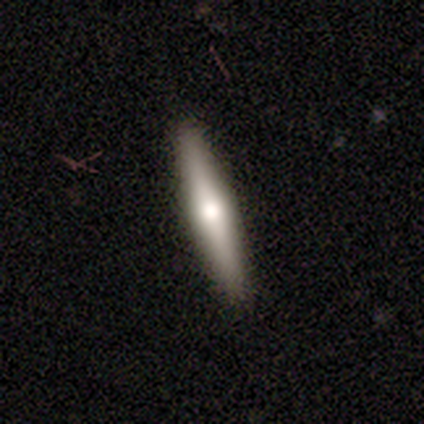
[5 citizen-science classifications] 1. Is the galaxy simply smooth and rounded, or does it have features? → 80% featured or disk, 20% smooth, 0% star or artifact.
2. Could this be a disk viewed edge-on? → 100% yes, 0% no.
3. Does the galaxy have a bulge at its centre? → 100% rounded, 0% boxy, 0% none.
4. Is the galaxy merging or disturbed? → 80% none, 20% minor disturbance, 0% major disturbance, 0% merger.